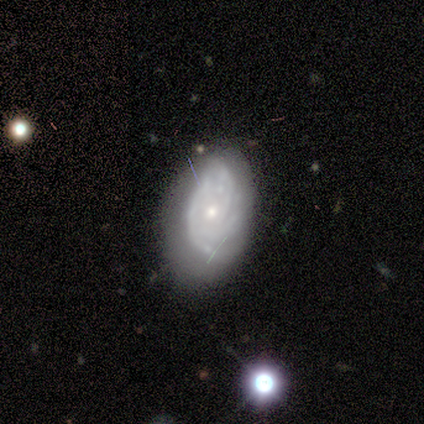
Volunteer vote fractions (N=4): Smooth or featured?
  - featured or disk: 100% *
  - smooth: 0%
  - star or artifact: 0%
Edge-on disk?
  - no: 100% *
  - yes: 0%
Bar?
  - no: 75% *
  - weak: 25%
  - strong: 0%
Spiral arms?
  - yes: 100% *
  - no: 0%
Spiral winding?
  - tight: 75% *
  - medium: 25%
  - loose: 0%
Spiral arm count?
  - 2: 75% *
  - 3: 25%
  - 1: 0%
  - 4: 0%
  - more than 4: 0%
  - can't tell: 0%
Bulge size?
  - small: 75% *
  - moderate: 25%
  - dominant: 0%
  - large: 0%
  - none: 0%
Merging?
  - minor disturbance: 75% *
  - none: 25%
  - major disturbance: 0%
  - merger: 0%